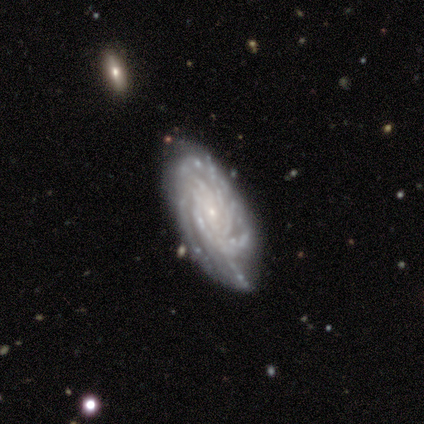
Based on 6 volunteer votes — Smooth or featured: featured or disk — 100%
Edge-on disk: no — 83% (yes — 17%)
Bar: no — 100%
Spiral arms: yes — 100%
Spiral winding: tight — 80% (medium — 20%)
Spiral arm count: more than 4 — 60% (can't tell — 40%)
Bulge size: small — 100%
Merging: none — 67% (minor disturbance — 17%)